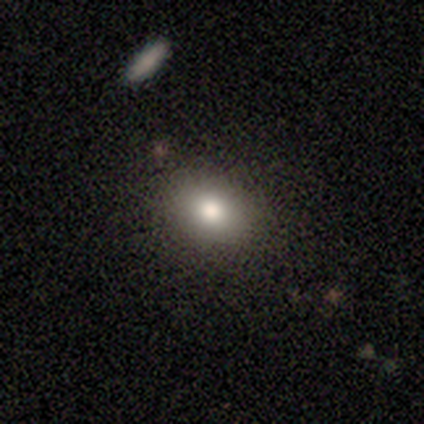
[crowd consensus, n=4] This is clearly a smooth galaxy (100%). How rounded: likely in between (75%). Merging: clearly none (100%).